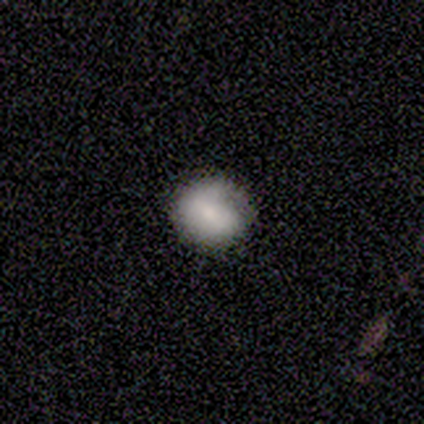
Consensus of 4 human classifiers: smooth-or-featured: smooth: 75% | featured or disk: 25% | star or artifact: 0%
  how-rounded: round: 67% | in between: 33% | cigar-shaped: 0%
  merging: none: 50% (tied) | major disturbance: 50% (tied) | minor disturbance: 0% | merger: 0%